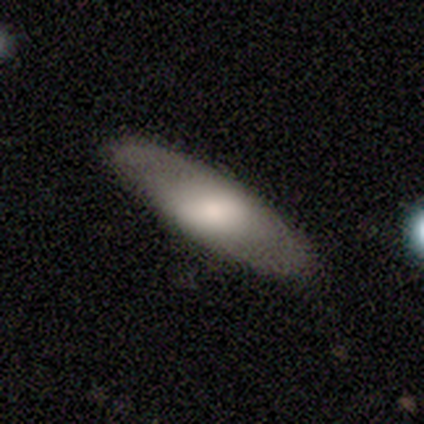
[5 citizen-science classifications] Volunteers were most divided on "how rounded": in between: 75%, cigar-shaped: 25%, round: 0%. More confident: merging — none (100%); smooth or featured — smooth (80%).